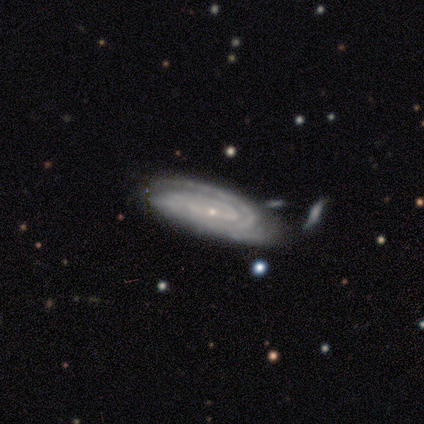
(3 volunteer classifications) featured or disk 100%, smooth 0%, star or artifact 0%. Down the decision tree: edge-on disk — no (100%); bar — weak (67%); spiral arms — yes (100%); spiral arm count — 1 (33%, tied with 2 and 3); spiral winding — tight (67%); bulge size — small (100%); merging — none (67%).